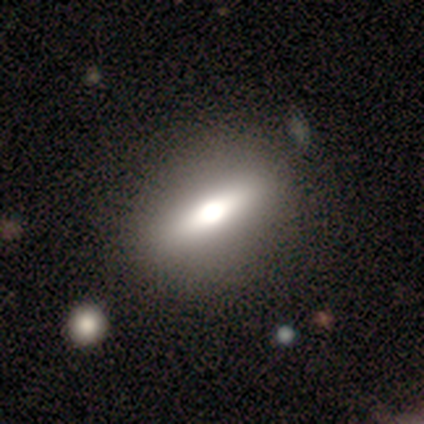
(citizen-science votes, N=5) smooth 60%, featured or disk 40%, star or artifact 0%. Down the decision tree: how rounded — in between (67%); merging — none (80%).